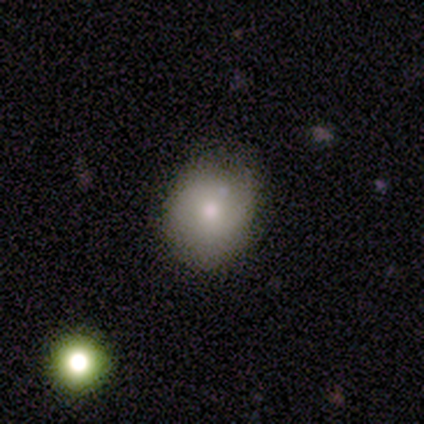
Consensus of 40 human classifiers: smooth-or-featured: smooth: 65% | featured or disk: 20% | star or artifact: 15%
  how-rounded: round: 77% | in between: 23% | cigar-shaped: 0%
  merging: none: 68% | minor disturbance: 18% | major disturbance: 9% | merger: 6%